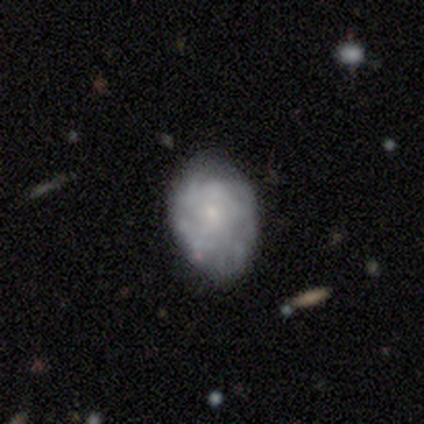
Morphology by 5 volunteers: Q: Smooth or featured?
A: smooth (60%); runner-up: featured or disk (20%)
Q: How rounded?
A: in between (100%)
Q: Merging?
A: none (75%); runner-up: minor disturbance (25%)